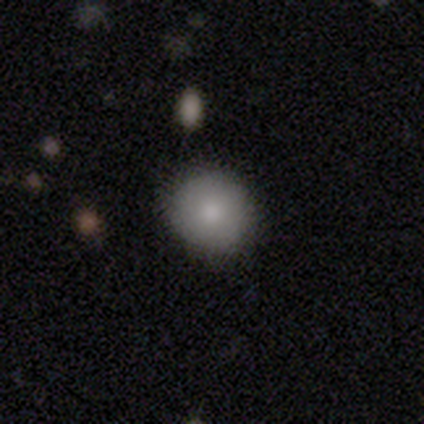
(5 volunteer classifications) Smooth or featured: smooth — 80% (featured or disk — 20%)
How rounded: round — 100%
Merging: none — 100%